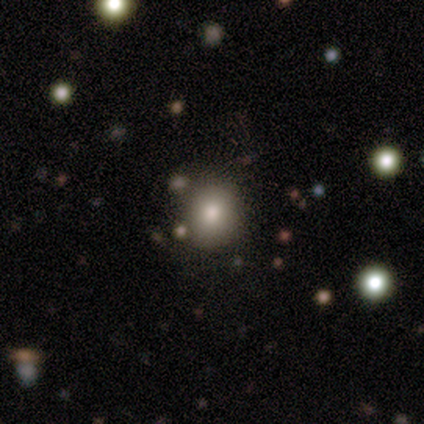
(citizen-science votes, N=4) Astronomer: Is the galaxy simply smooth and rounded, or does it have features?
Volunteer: smooth — 75%.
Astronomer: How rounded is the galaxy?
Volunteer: round — 100%.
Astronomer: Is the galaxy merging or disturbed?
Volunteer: none — 100%.